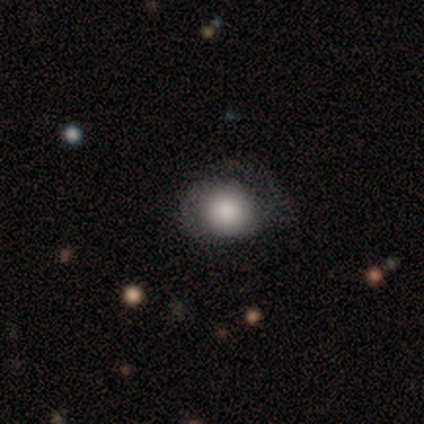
Smooth or featured? smooth (100%)
How rounded? round (75%)
Merging? none (75%)